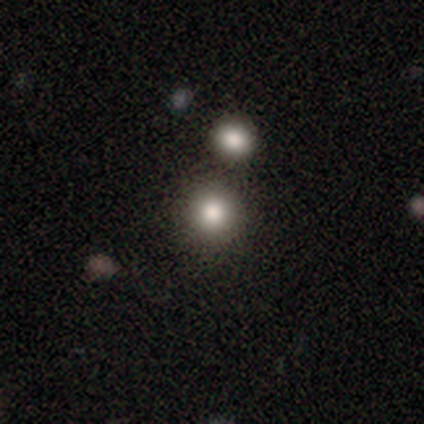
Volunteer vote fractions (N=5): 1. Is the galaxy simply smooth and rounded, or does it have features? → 80% smooth, 20% star or artifact, 0% featured or disk.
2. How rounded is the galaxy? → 100% round, 0% in between, 0% cigar-shaped.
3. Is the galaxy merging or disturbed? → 75% none, 25% merger, 0% minor disturbance, 0% major disturbance.